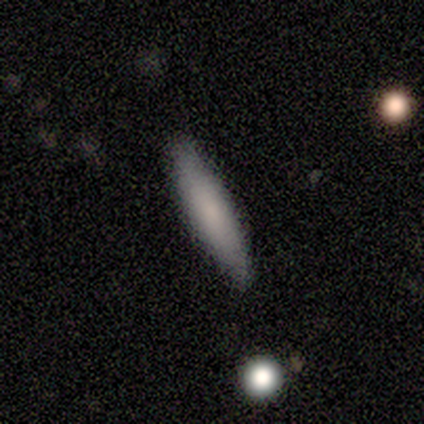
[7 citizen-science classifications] smooth-or-featured: featured or disk: 57% | smooth: 43% | star or artifact: 0%
  disk-edge-on: yes: 50% (tied) | no: 50% (tied)
    edge-on-bulge: boxy: 50% (tied) | none: 50% (tied) | rounded: 0%
  merging: none: 86% | minor disturbance: 14% | major disturbance: 0% | merger: 0%